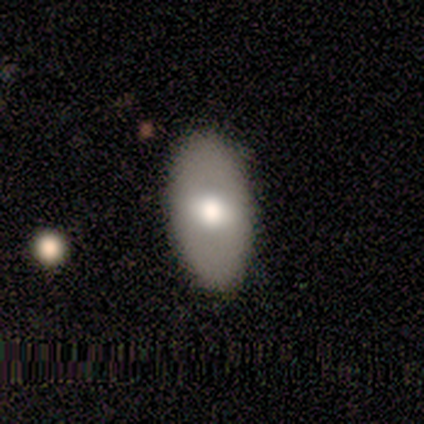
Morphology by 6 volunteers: Volunteers were most divided on "how rounded": in between: 80%, round: 20%, cigar-shaped: 0%. More confident: merging — none (100%); smooth or featured — smooth (83%).